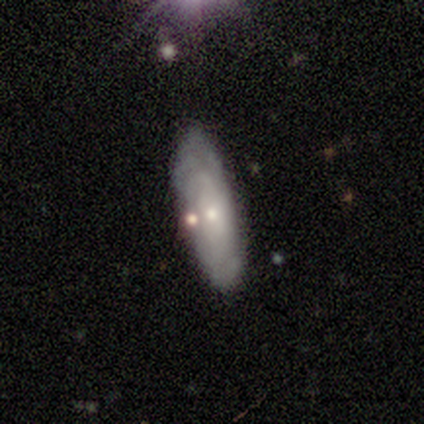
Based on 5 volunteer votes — featured or disk 60%, smooth 40%, star or artifact 0%. Down the decision tree: edge-on disk — no (100%); bar — no (67%); spiral arms — yes (100%); spiral arm count — 1 (33%, tied with 2 and can't tell); spiral winding — loose (67%); bulge size — small (100%); merging — none (40%).